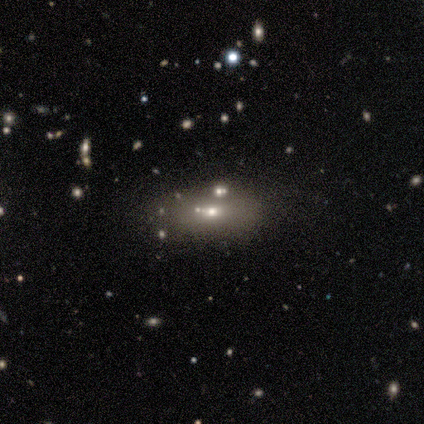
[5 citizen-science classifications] Overall: smooth (60%; featured or disk 20%). How rounded: in between (67%; round 33%). Merging: none (25%, tied with minor disturbance, major disturbance and merger).